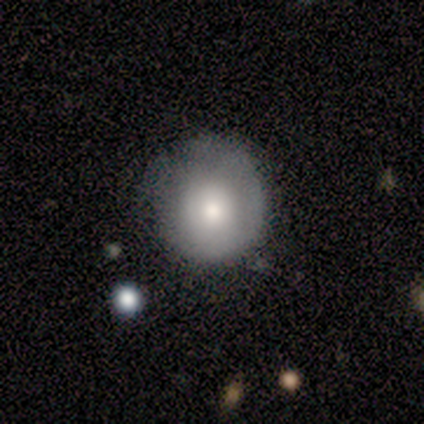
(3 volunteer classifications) smooth 67%, featured or disk 33%, star or artifact 0%. Down the decision tree: how rounded — round (100%); merging — minor disturbance (100%).